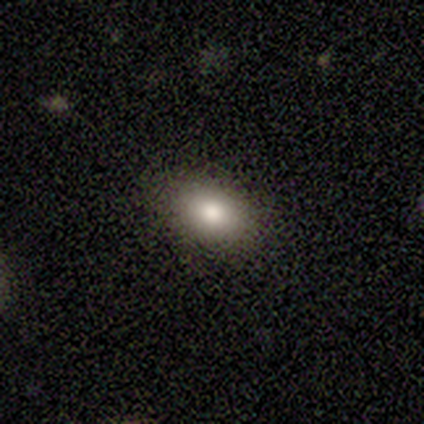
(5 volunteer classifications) Overall: smooth (60%; star or artifact 40%). How rounded: in between (67%; round 33%). Merging: none (100%).